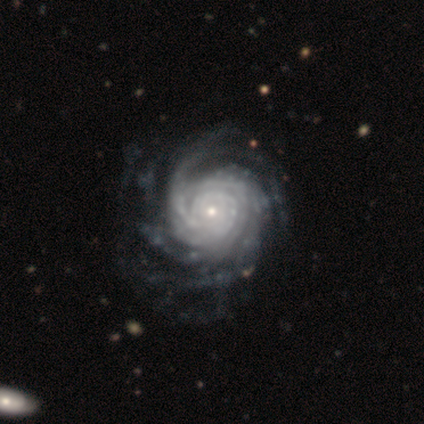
Smooth or featured: featured or disk — 100%
Edge-on disk: no — 100%
Bar: no — 100%
Spiral arms: yes — 100%
Spiral winding: tight — 100%
Spiral arm count: more than 4 — 40% (tied with can't tell — 40%)
Bulge size: small — 100%
Merging: none — 100%